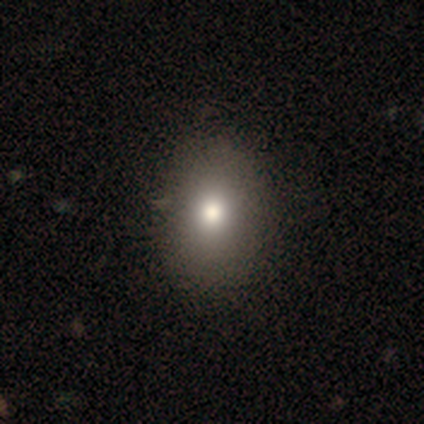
A smooth galaxy with no disk features (85%) that is in between round and cigar-shaped (64%). Merging: none (63%).